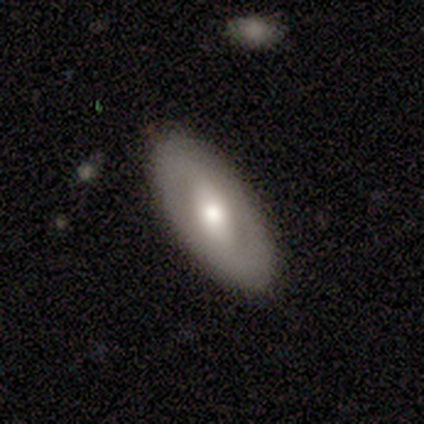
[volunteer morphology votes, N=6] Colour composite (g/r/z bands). It shows a featured or disk galaxy (83%) with a weak bar (40%, tied with no), no spiral arms (60%) and a large central bulge (60%). Merging: none (100%).